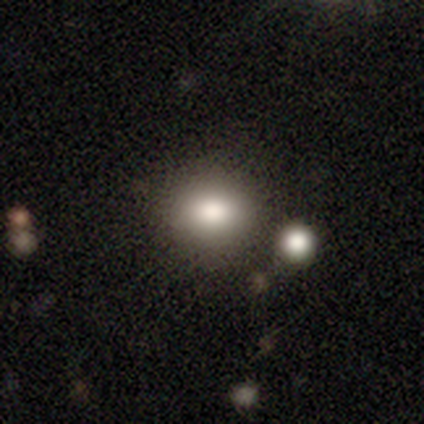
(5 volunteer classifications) Q: Smooth or featured?
A: smooth (80%); runner-up: star or artifact (20%)
Q: How rounded?
A: round (75%); runner-up: in between (25%)
Q: Merging?
A: none (50%); tied with: merger (50%)